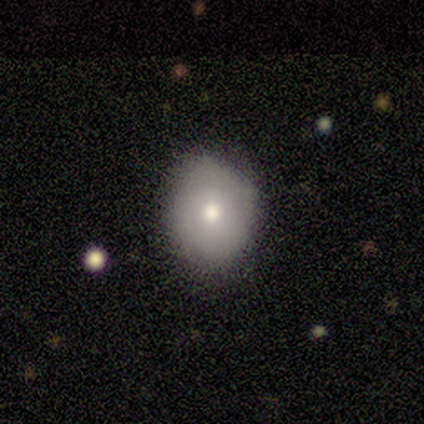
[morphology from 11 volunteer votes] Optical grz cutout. It shows a smooth galaxy with no disk features (73%) that is round (75%). Merging: none (73%).